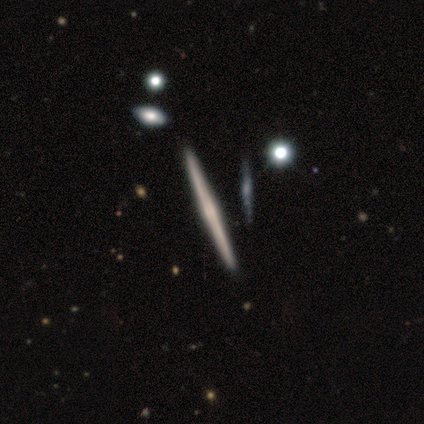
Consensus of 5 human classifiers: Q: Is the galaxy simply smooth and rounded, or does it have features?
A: featured or disk — 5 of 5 (100%).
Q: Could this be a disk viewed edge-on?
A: yes — 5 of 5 (100%).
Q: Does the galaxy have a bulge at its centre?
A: rounded — 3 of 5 (60%).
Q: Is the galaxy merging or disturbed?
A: none — 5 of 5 (100%).